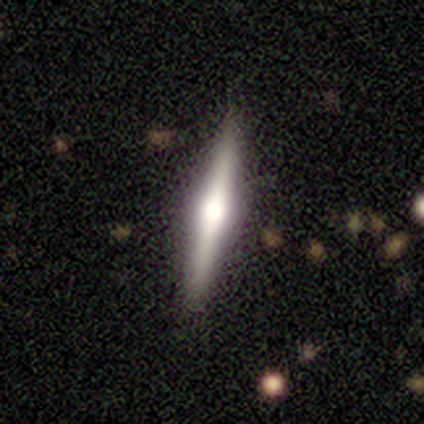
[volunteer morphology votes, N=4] This is possibly a smooth galaxy (50%, tied with featured or disk). How rounded: clearly cigar-shaped (100%). Merging: clearly none (100%).